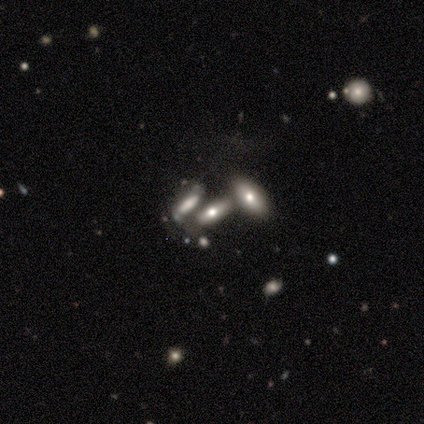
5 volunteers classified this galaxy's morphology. A smooth galaxy with no disk features (80%) that is in between round and cigar-shaped (75%). Merging: minor disturbance (40%, tied with merger).